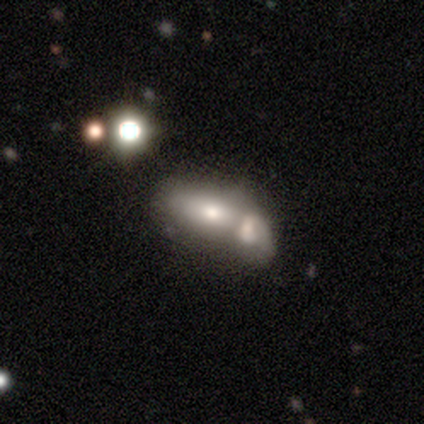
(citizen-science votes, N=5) smooth_or_featured: smooth (p=0.40) [tied with: star or artifact p=0.40]
how_rounded: in between (p=0.50) [tied with: cigar-shaped p=0.50]
merging: merger (p=1.00)